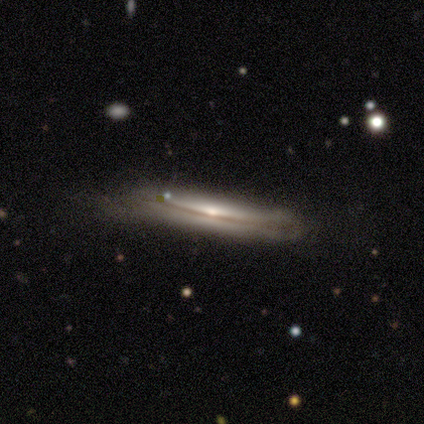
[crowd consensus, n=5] Smooth or featured: featured or disk — 60% (smooth — 40%)
Edge-on disk: yes — 100%
Edge-on bulge: none — 67% (rounded — 33%)
Merging: none — 40% (tied with minor disturbance — 40%)